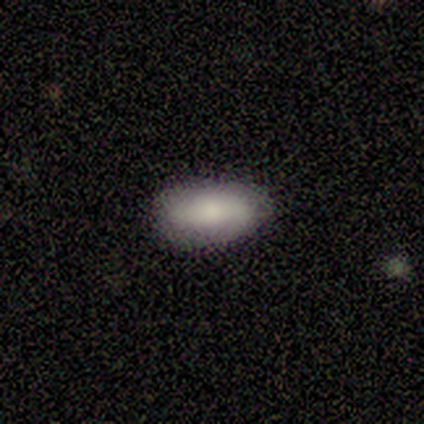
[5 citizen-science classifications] smooth_or_featured: smooth (p=0.60) [alt: featured or disk p=0.20]
how_rounded: in between (p=1.00)
merging: none (p=1.00)